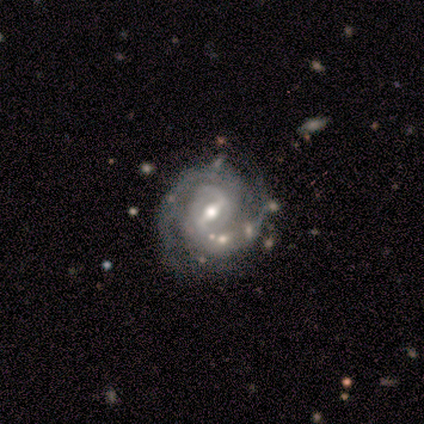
smooth-or-featured: featured or disk: 100% | smooth: 0% | star or artifact: 0%
  disk-edge-on: no: 100% | yes: 0%
    bar: weak: 80% | strong: 20% | no: 0%
    has-spiral-arms: yes: 100% | no: 0%
      spiral-winding: tight: 60% | medium: 40% | loose: 0%
      spiral-arm-count: 2: 100% | 1: 0% | 3: 0% | 4: 0% | more than 4: 0% | can't tell: 0%
    bulge-size: moderate: 60% | small: 40% | dominant: 0% | large: 0% | none: 0%
  merging: none: 100% | minor disturbance: 0% | major disturbance: 0% | merger: 0%